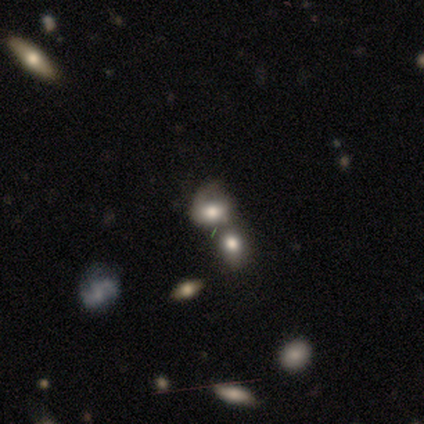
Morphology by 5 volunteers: Q: Smooth or featured?
A: smooth (60%); runner-up: featured or disk (20%)
Q: How rounded?
A: round (67%); runner-up: in between (33%)
Q: Merging?
A: merger (50%); runner-up: none (25%)